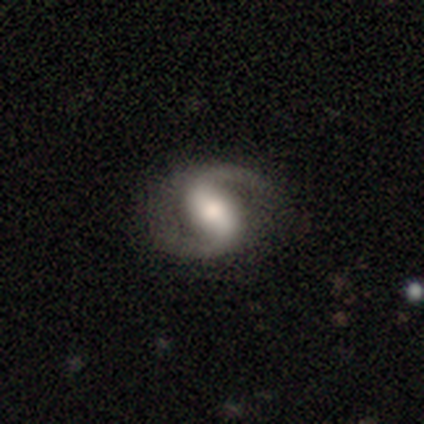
smooth_or_featured: featured or disk (p=0.95) [alt: smooth p=0.05]
disk_edge_on: no (p=1.00)
bar: strong (p=0.49) [alt: weak p=0.41]
has_spiral_arms: yes (p=0.99) [alt: no p=0.01]
spiral_winding: medium (p=0.51) [alt: loose p=0.33]
spiral_arm_count: 2 (p=0.95) [alt: 1 p=0.04]
bulge_size: moderate (p=0.53) [alt: large p=0.28]
merging: none (p=0.41) [alt: minor disturbance p=0.06]